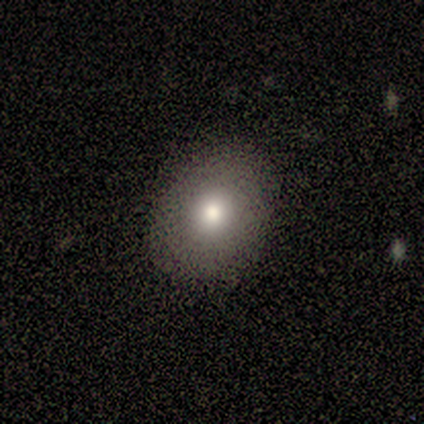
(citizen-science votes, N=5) A smooth galaxy with no disk features (80%) that is in between round and cigar-shaped (75%). Merging: none (80%).